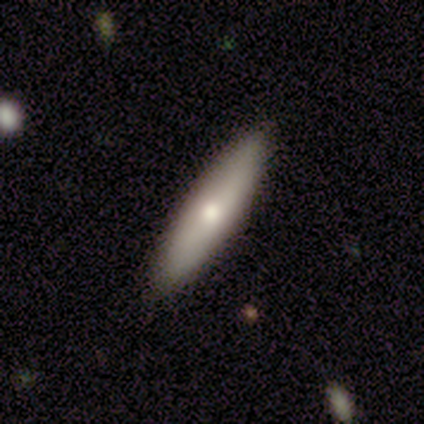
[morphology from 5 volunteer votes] A smooth galaxy with no disk features (80%) that is cigar-shaped (100%). Merging: none (100%).